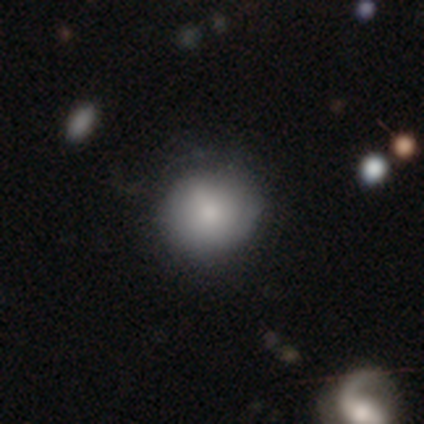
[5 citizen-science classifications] Q: Smooth or featured?
A: smooth (100%)
Q: How rounded?
A: round (80%); runner-up: in between (20%)
Q: Merging?
A: none (60%); runner-up: minor disturbance (40%)